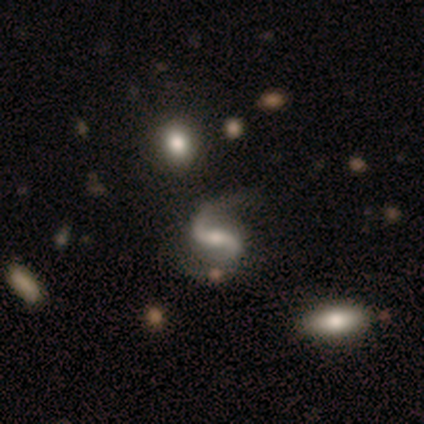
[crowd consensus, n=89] featured or disk 94%, star or artifact 3%, smooth 2%. Down the decision tree: edge-on disk — no (95%); bar — weak (42%); spiral arms — yes (99%); spiral arm count — 2 (96%); spiral winding — loose (71%); bulge size — moderate (49%); merging — none (67%).